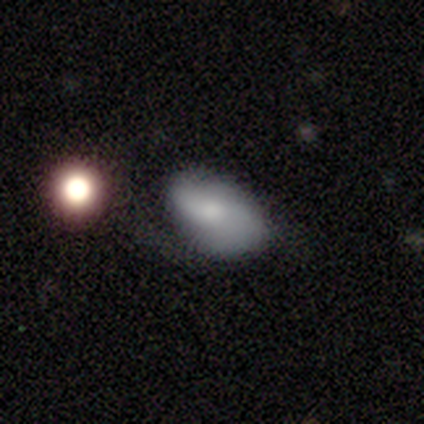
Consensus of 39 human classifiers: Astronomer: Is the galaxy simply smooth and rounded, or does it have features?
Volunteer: smooth — 79%.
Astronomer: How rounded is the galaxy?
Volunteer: in between — 87%.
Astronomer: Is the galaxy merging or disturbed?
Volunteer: none — 47% (runner-up: minor disturbance, 34%).